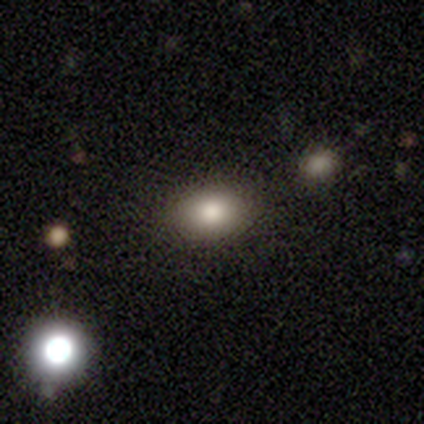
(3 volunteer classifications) smooth-or-featured: smooth: 67% | featured or disk: 33% | star or artifact: 0%
  how-rounded: in between: 100% | round: 0% | cigar-shaped: 0%
  merging: none: 100% | minor disturbance: 0% | major disturbance: 0% | merger: 0%